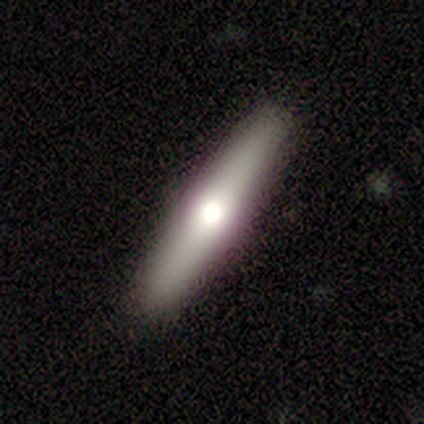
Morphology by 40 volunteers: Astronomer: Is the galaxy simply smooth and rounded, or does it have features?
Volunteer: smooth — 57% (runner-up: featured or disk, 40%).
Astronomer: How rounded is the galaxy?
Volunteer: cigar-shaped — 96%.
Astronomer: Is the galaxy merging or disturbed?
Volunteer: none — 95%.